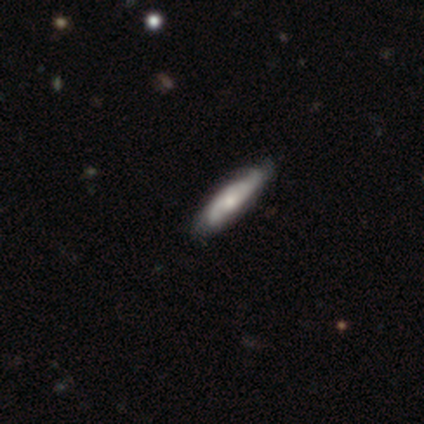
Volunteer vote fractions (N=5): A smooth galaxy with no disk features (60%) that is cigar-shaped (67%).

Vote fractions:
- Smooth or featured? smooth: 60% / featured or disk: 40% / star or artifact: 0%
- How rounded? cigar-shaped: 67% / in between: 33% / round: 0%
- Merging? none: 100% / minor disturbance: 0% / major disturbance: 0% / merger: 0%